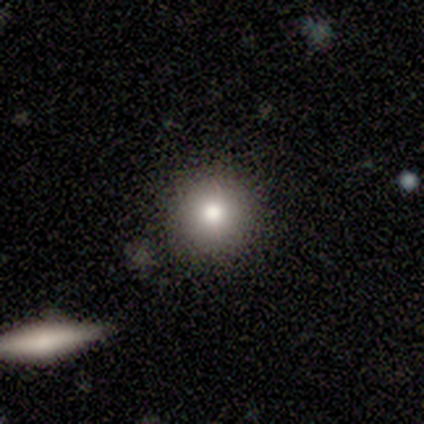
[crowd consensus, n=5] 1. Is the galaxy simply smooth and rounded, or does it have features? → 100% smooth, 0% featured or disk, 0% star or artifact.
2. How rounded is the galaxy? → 100% round, 0% in between, 0% cigar-shaped.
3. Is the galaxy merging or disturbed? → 80% none, 20% merger, 0% minor disturbance, 0% major disturbance.